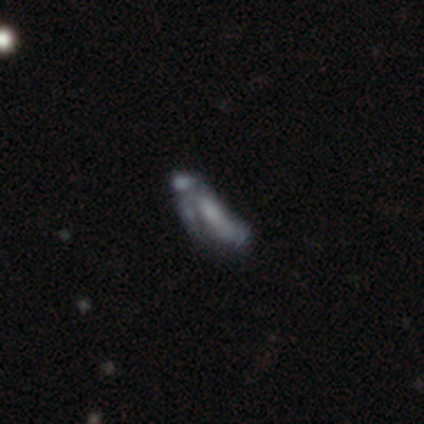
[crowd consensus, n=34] This appears to be a featured or disk galaxy (47%) with no bar (73%), no spiral arms (82%) and no central bulge (55%). Merging: none (33%).